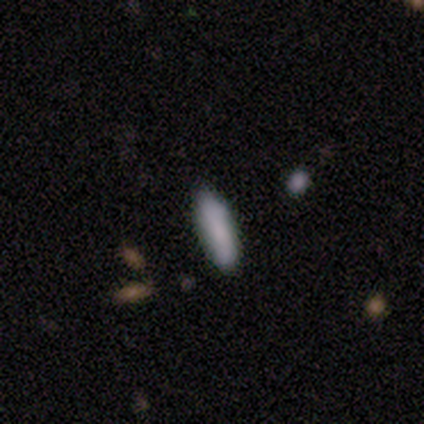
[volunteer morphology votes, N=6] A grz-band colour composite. It shows a smooth galaxy with no disk features (100%) that is in between round and cigar-shaped (67%). Merging: none (67%).